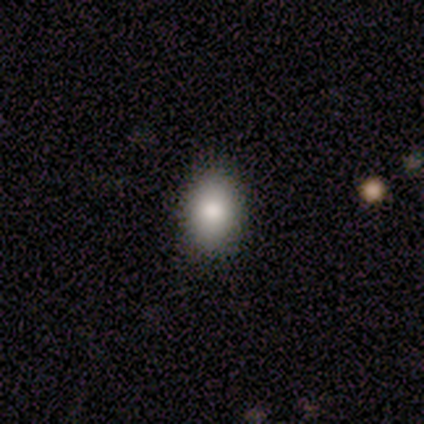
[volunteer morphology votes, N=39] smooth 77%, featured or disk 13%, star or artifact 10%. Down the decision tree: how rounded — in between (80%); merging — none (91%).